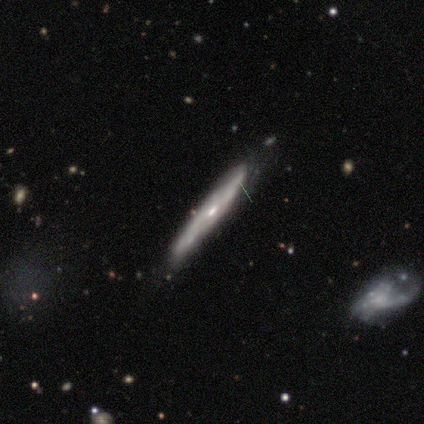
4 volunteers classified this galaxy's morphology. Smooth or featured? 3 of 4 (75%) said featured or disk. Edge-on disk? 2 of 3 (67%) said yes. Edge-on bulge? 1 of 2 (50%, tied with rounded) said none. Merging? 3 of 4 (75%) said none.